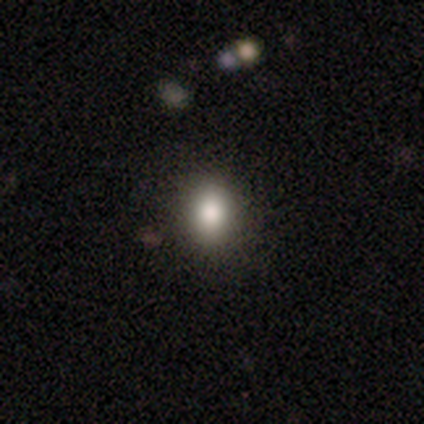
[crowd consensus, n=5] Q: Smooth or featured?
A: smooth (80%); runner-up: star or artifact (20%)
Q: How rounded?
A: round (75%); runner-up: in between (25%)
Q: Merging?
A: none (100%)